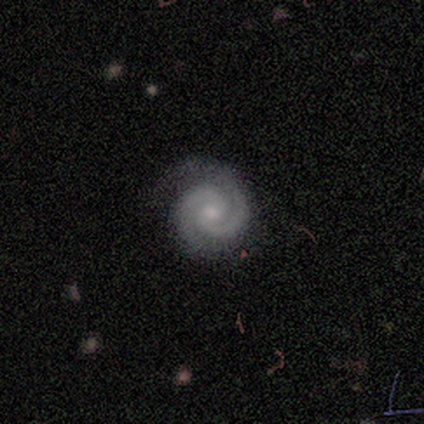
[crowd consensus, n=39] Smooth or featured: featured or disk — 87% (smooth — 8%)
Edge-on disk: no — 100%
Bar: no — 71% (weak — 24%)
Spiral arms: yes — 100%
Spiral winding: tight — 65% (medium — 29%)
Spiral arm count: 2 — 94% (3 — 3%)
Bulge size: small — 47% (moderate — 44%)
Merging: none — 86% (minor disturbance — 14%)